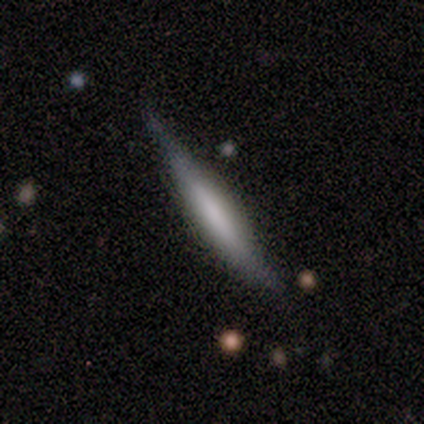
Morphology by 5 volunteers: Smooth or featured? featured or disk (60%)
Edge-on disk? yes (100%)
Edge-on bulge? none (67%)
Merging? none (80%)